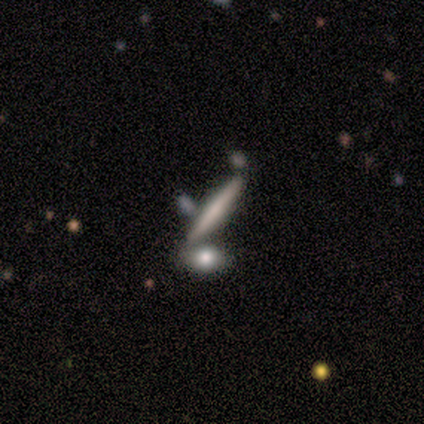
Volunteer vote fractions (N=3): This is likely a smooth galaxy (67%). How rounded: clearly cigar-shaped (100%). Merging: clearly none (100%).